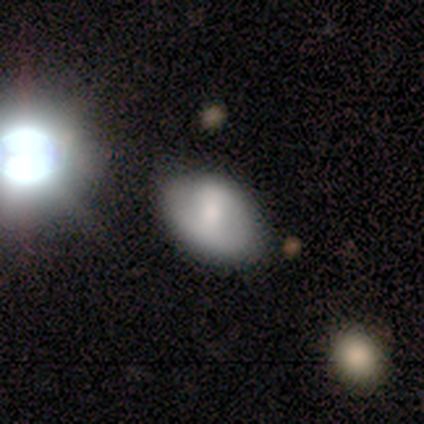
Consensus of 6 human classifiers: This appears to be a smooth galaxy with no disk features (50%, tied with featured or disk) that is in between round and cigar-shaped (100%). Merging: none (83%).